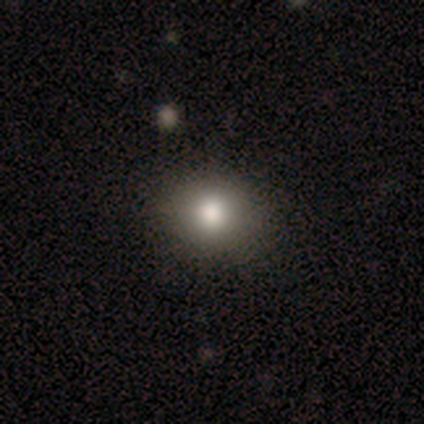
Smooth or featured?
  - smooth: 100% *
  - featured or disk: 0%
  - star or artifact: 0%
How rounded?
  - round: 57% *
  - in between: 29%
  - cigar-shaped: 14%
Merging?
  - none: 100% *
  - minor disturbance: 0%
  - major disturbance: 0%
  - merger: 0%